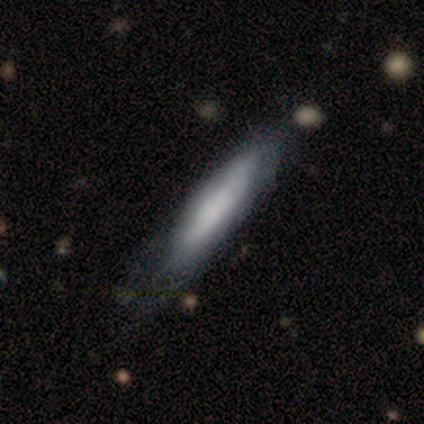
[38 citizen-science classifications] smooth_or_featured: smooth (p=0.53) [alt: featured or disk p=0.47]
how_rounded: cigar-shaped (p=0.80) [alt: in between p=0.20]
merging: none (p=0.32) [alt: minor disturbance p=0.18]